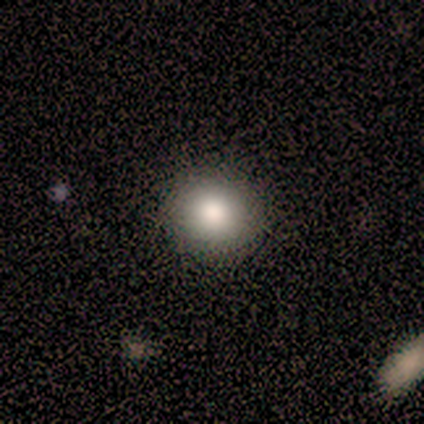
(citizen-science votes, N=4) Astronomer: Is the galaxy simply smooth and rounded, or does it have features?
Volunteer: smooth — 100%.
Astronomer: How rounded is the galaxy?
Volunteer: round — 100%.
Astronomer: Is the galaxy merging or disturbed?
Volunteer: none — 100%.